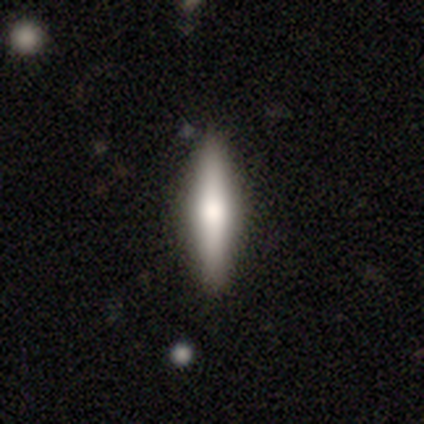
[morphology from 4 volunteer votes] Overall: smooth (50%, tied with featured or disk). How rounded: cigar-shaped (100%). Merging: none (75%).